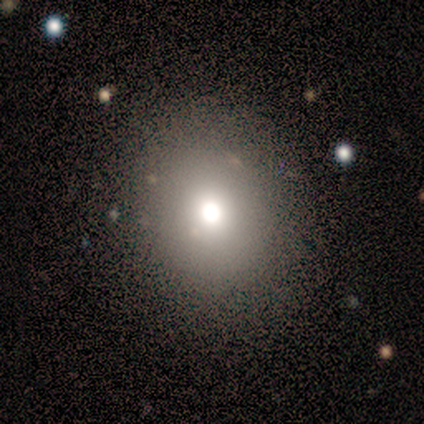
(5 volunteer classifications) Q: Smooth or featured?
A: smooth (40%); tied with: star or artifact (40%)
Q: How rounded?
A: round (50%); tied with: in between (50%)
Q: Merging?
A: none (100%)